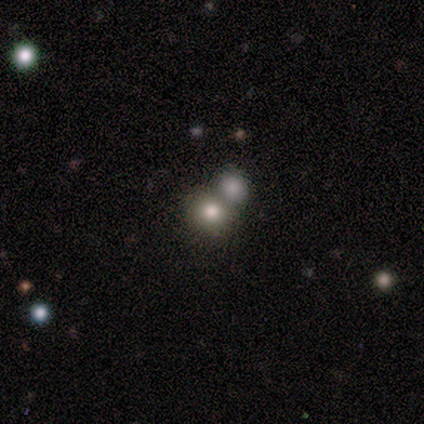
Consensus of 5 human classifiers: Smooth or featured? smooth (80%)
How rounded? round (75%)
Merging? minor disturbance (40%, tied with merger)